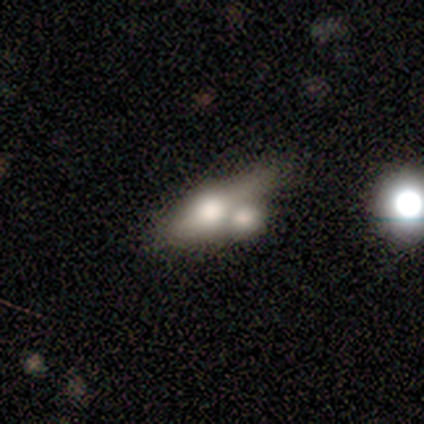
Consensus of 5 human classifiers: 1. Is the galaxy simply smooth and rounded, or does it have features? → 80% smooth, 20% featured or disk, 0% star or artifact.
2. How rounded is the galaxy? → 50% in between (tied), 50% cigar-shaped (tied), 0% round.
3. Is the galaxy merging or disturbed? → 60% merger, 20% none, 20% minor disturbance, 0% major disturbance.